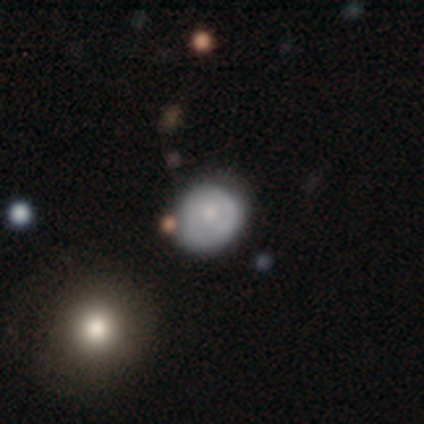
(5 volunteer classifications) Q: Smooth or featured?
A: smooth (80%); runner-up: featured or disk (20%)
Q: How rounded?
A: round (100%)
Q: Merging?
A: none (80%); runner-up: major disturbance (20%)